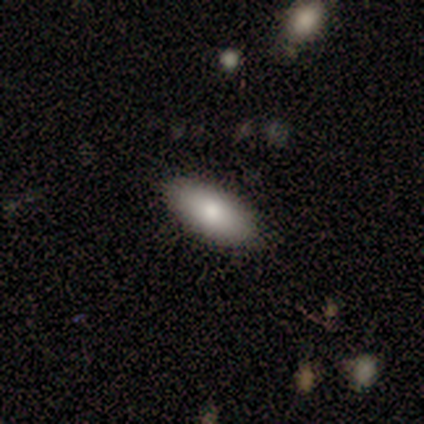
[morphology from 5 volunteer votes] Smooth or featured? 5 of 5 (100%) said smooth. How rounded? 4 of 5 (80%) said in between. Merging? 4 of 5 (80%) said none.